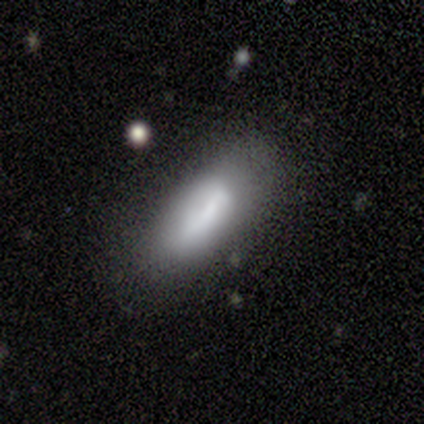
smooth 75%, featured or disk 25%, star or artifact 0%. Down the decision tree: how rounded — cigar-shaped (67%); merging — none (100%).